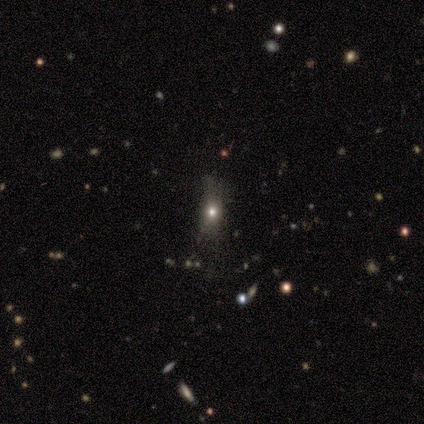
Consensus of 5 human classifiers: smooth 40% (tied), star or artifact 40% (tied), featured or disk 20%. Down the decision tree: how rounded — in between (50%, tied with cigar-shaped); merging — none (67%).